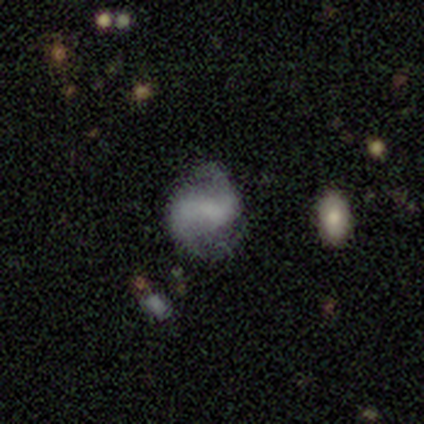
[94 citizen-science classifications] smooth-or-featured: featured or disk: 72% | smooth: 22% | star or artifact: 5%
  disk-edge-on: no: 99% | yes: 1%
    bar: strong: 37% | weak: 36% | no: 27%
    has-spiral-arms: yes: 94% | no: 6%
      spiral-winding: loose: 44% | medium: 41% | tight: 14%
      spiral-arm-count: 2: 92% | can't tell: 6% | 3: 2% | 1: 0% | 4: 0% | more than 4: 0%
    bulge-size: none: 54% | small: 22% | moderate: 21% | large: 3% | dominant: 0%
  merging: none: 64% | minor disturbance: 22% | major disturbance: 9% | merger: 4%